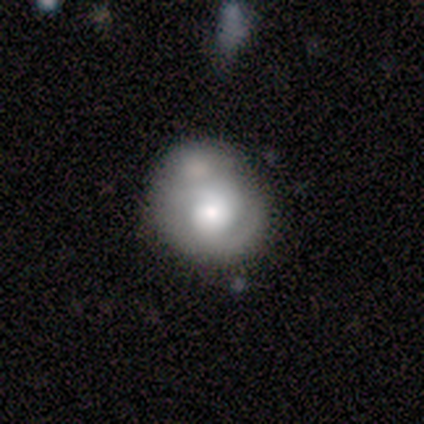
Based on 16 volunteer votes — Smooth or featured: featured or disk — 50% (smooth — 44%)
Edge-on disk: no — 100%
Bar: no — 75% (strong — 12%)
Spiral arms: yes — 88% (no — 12%)
Spiral winding: medium — 57% (tight — 43%)
Spiral arm count: 2 — 86% (1 — 14%)
Bulge size: large — 50% (moderate — 38%)
Merging: none — 47% (minor disturbance — 27%)